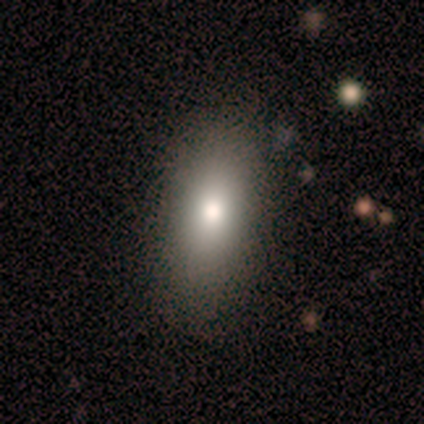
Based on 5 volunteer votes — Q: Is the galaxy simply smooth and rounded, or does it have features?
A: smooth — 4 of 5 (80%).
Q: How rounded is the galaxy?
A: in between — 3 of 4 (75%).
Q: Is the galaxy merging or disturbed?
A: none — 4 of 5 (80%).